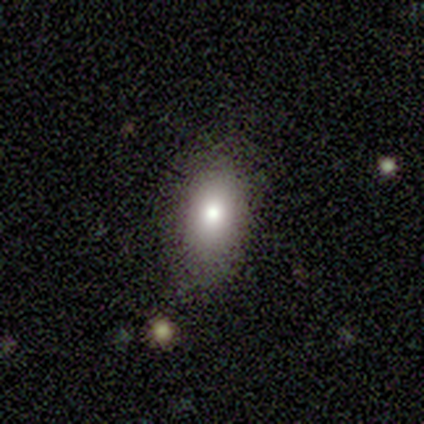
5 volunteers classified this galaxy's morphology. smooth-or-featured: smooth: 80% | featured or disk: 20% | star or artifact: 0%
  how-rounded: in between: 75% | cigar-shaped: 25% | round: 0%
  merging: none: 80% | minor disturbance: 20% | major disturbance: 0% | merger: 0%